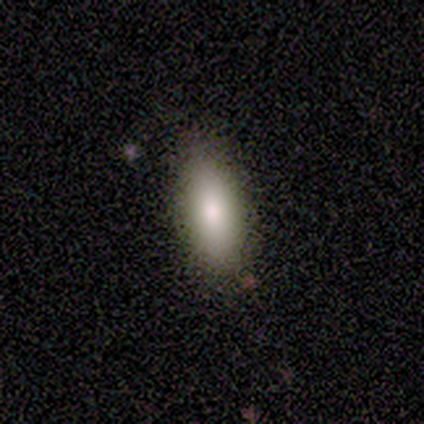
This appears to be a smooth galaxy with no disk features (100%) that is in between round and cigar-shaped (100%). Merging: none (75%).